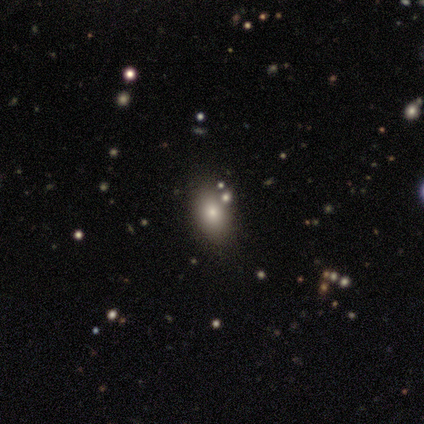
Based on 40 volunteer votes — Smooth or featured?
  - smooth: 65% *
  - star or artifact: 25%
  - featured or disk: 10%
How rounded?
  - in between: 81% *
  - round: 15%
  - cigar-shaped: 4%
Merging?
  - none: 93% *
  - minor disturbance: 3%
  - merger: 3%
  - major disturbance: 0%